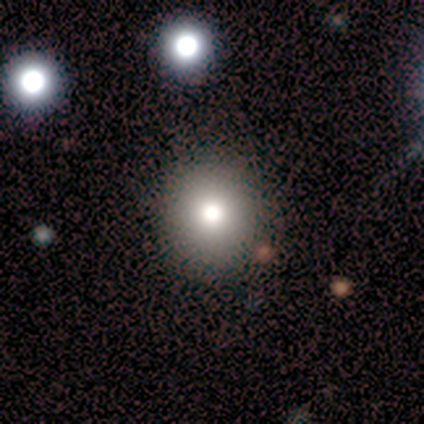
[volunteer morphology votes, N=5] smooth-or-featured: smooth: 80% | star or artifact: 20% | featured or disk: 0%
  how-rounded: round: 100% | in between: 0% | cigar-shaped: 0%
  merging: none: 100% | minor disturbance: 0% | major disturbance: 0% | merger: 0%